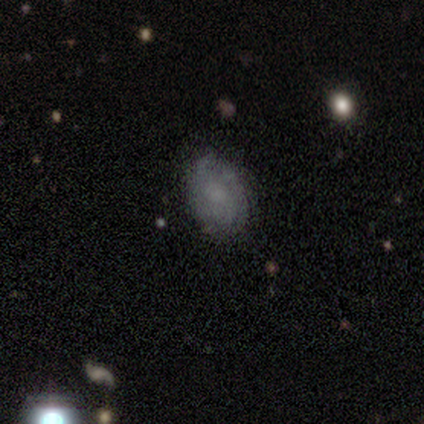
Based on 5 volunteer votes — smooth 40% (tied), featured or disk 40% (tied), star or artifact 20%. Down the decision tree: how rounded — in between (100%); merging — none (100%).